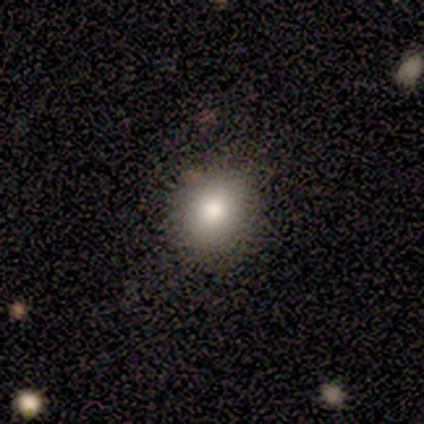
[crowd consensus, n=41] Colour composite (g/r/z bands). It shows a smooth galaxy with no disk features (66%) that is round (70%). Merging: none (89%).